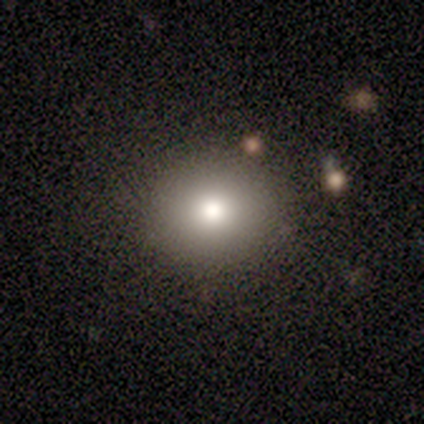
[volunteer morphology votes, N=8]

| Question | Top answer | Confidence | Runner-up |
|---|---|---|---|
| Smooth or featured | smooth | 88% | star or artifact (12%) |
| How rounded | round | 86% | in between (14%) |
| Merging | none | 100% | — |